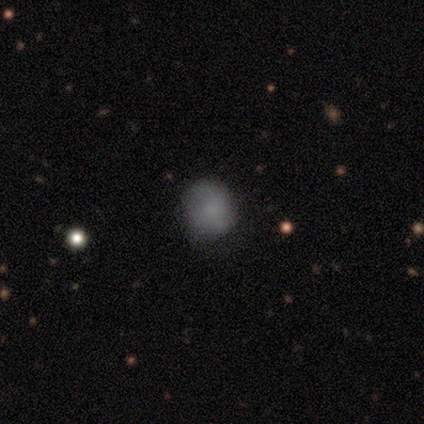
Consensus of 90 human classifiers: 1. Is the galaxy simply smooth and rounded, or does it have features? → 68% smooth, 18% featured or disk, 14% star or artifact.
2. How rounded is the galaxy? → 89% round, 11% in between, 0% cigar-shaped.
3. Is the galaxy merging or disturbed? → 78% none, 16% minor disturbance, 5% major disturbance, 1% merger.